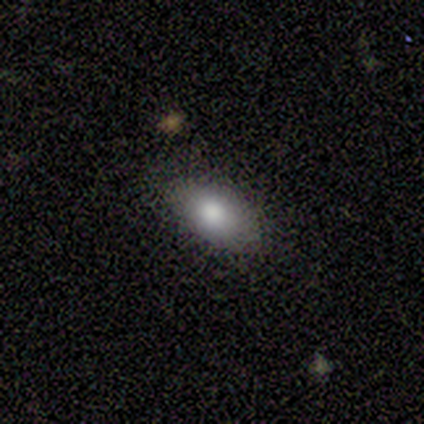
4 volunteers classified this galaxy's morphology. smooth-or-featured: smooth: 75% | star or artifact: 25% | featured or disk: 0%
  how-rounded: in between: 100% | round: 0% | cigar-shaped: 0%
  merging: none: 100% | minor disturbance: 0% | major disturbance: 0% | merger: 0%